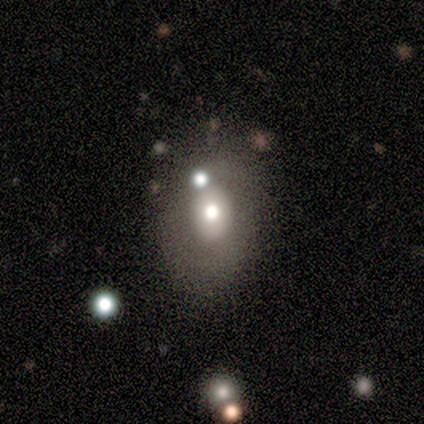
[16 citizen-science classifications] A smooth galaxy with no disk features (69%) that is in between round and cigar-shaped (64%).

Vote fractions:
- Smooth or featured? smooth: 69% / featured or disk: 19% / star or artifact: 12%
- How rounded? in between: 64% / round: 36% / cigar-shaped: 0%
- Merging? none: 79% / merger: 14% / major disturbance: 7% / minor disturbance: 0%